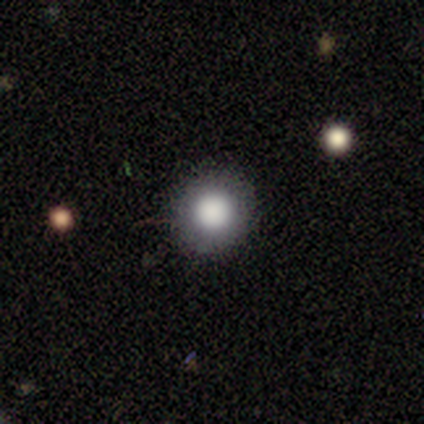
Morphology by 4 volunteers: Smooth or featured: smooth — 50% (tied with featured or disk — 50%)
How rounded: round — 100%
Merging: none — 100%